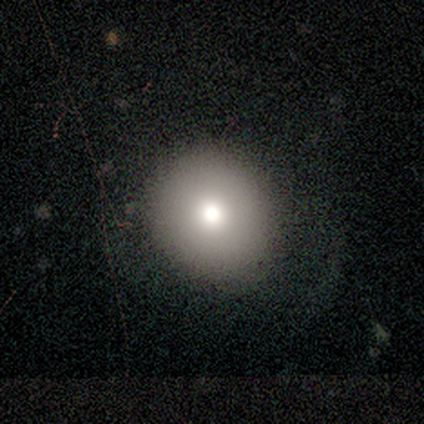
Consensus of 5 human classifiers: Overall: smooth (80%). How rounded: round (100%). Merging: none (100%).